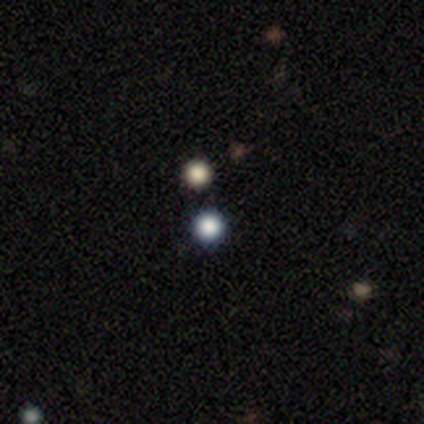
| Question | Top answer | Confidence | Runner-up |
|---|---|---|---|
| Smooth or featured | smooth | 40% | tied: star or artifact (40%) |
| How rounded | round | 100% | — |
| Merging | none | 67% | merger (33%) |